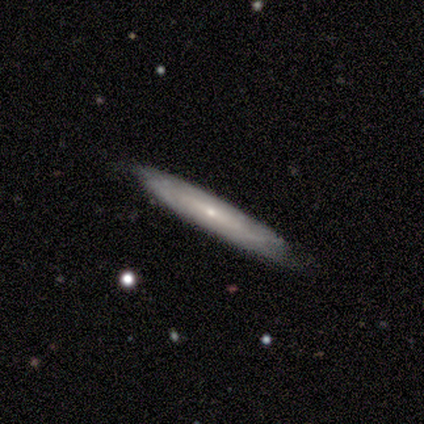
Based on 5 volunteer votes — smooth_or_featured: smooth (p=0.60) [alt: featured or disk p=0.40]
how_rounded: cigar-shaped (p=0.67) [alt: in between p=0.33]
merging: none (p=0.80) [alt: minor disturbance p=0.20]